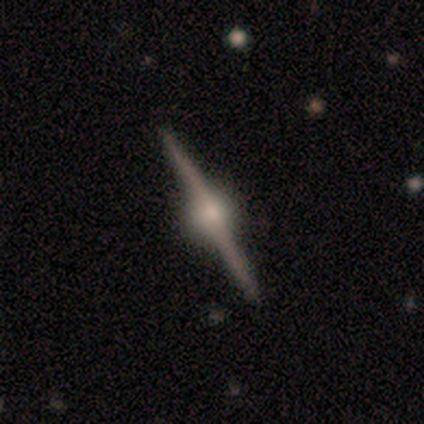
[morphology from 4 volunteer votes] featured or disk 100%, smooth 0%, star or artifact 0%. Down the decision tree: edge-on disk — yes (100%); edge-on bulge — rounded (100%); merging — none (75%).